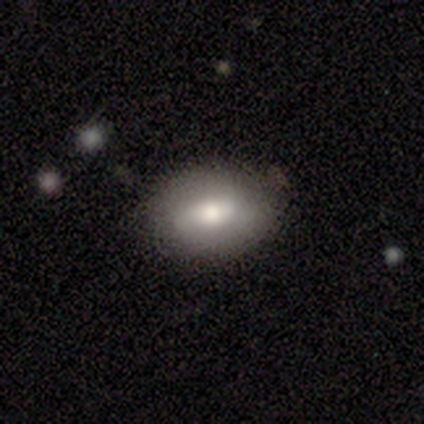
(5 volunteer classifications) Morphology: type=smooth (80%); roundness=in between (75%); merging=none (75%).